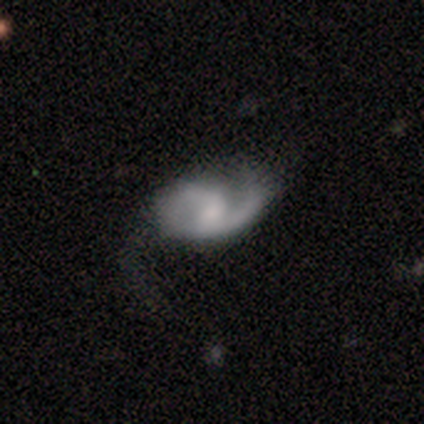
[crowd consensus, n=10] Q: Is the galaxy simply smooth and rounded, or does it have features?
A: featured or disk — 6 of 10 (60%).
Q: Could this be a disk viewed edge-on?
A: no — 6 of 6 (100%).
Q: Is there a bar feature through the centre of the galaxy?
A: weak — 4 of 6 (67%).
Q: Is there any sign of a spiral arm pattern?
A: yes — 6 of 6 (100%).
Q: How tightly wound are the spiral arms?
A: medium — 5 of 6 (83%).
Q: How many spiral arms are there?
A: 2 — 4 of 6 (67%).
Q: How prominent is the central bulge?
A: moderate — 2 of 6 (33%, tied with small and none).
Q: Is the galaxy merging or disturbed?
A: minor disturbance — 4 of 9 (44%).